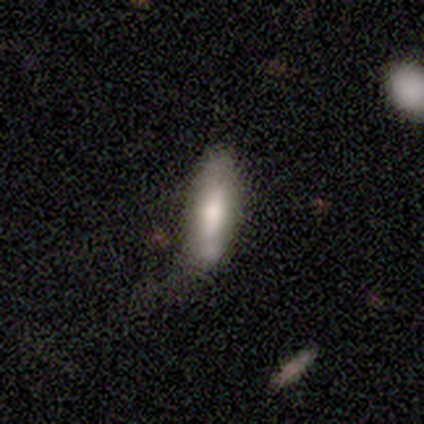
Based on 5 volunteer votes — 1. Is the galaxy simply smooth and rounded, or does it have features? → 80% featured or disk, 20% smooth, 0% star or artifact.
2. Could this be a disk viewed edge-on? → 75% no, 25% yes.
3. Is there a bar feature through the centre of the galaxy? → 67% no, 33% weak, 0% strong.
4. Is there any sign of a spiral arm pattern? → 100% no, 0% yes.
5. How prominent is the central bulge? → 33% large (tied), 33% moderate (tied), 33% small (tied), 0% dominant, 0% none.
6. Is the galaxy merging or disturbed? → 40% none (tied), 40% major disturbance (tied), 20% minor disturbance, 0% merger.